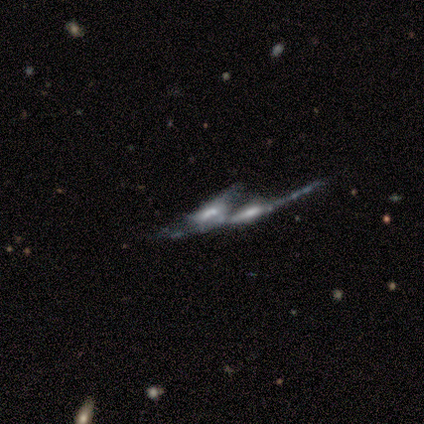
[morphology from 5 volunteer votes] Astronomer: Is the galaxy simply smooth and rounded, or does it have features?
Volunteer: featured or disk — 80%.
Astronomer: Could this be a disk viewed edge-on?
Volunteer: yes — 50%, tied with no at 50%.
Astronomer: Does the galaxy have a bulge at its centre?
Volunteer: boxy — 50%, tied with rounded at 50%.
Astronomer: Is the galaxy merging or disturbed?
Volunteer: merger — 100%.